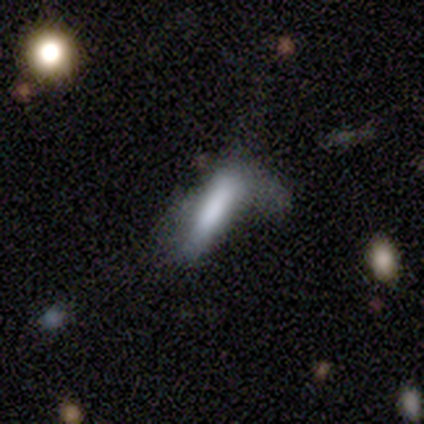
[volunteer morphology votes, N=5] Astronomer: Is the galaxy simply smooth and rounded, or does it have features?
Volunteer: smooth — 100%.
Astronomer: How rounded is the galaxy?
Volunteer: cigar-shaped — 80%.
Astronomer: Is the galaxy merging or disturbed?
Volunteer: minor disturbance — 60%.